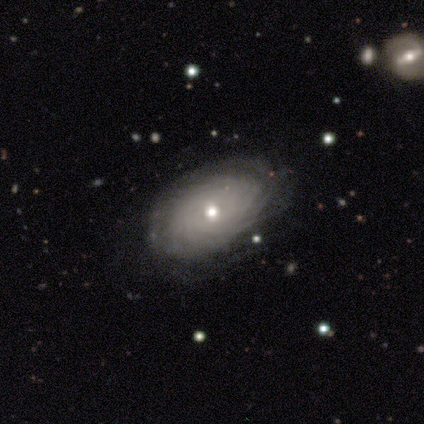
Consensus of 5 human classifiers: smooth_or_featured: featured or disk (p=0.80) [alt: smooth p=0.20]
disk_edge_on: no (p=1.00)
bar: no (p=0.75) [alt: weak p=0.25]
has_spiral_arms: yes (p=1.00)
spiral_winding: tight (p=1.00)
spiral_arm_count: can't tell (p=0.75) [alt: more than 4 p=0.25]
bulge_size: moderate (p=0.75) [alt: small p=0.25]
merging: none (p=0.60) [alt: minor disturbance p=0.40]